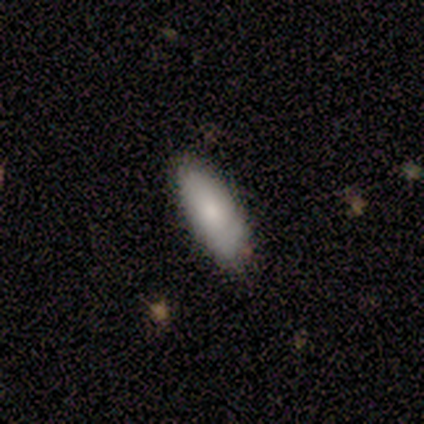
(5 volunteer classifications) This appears to be a smooth galaxy with no disk features (100%) that is in between round and cigar-shaped (80%). Merging: none (60%).